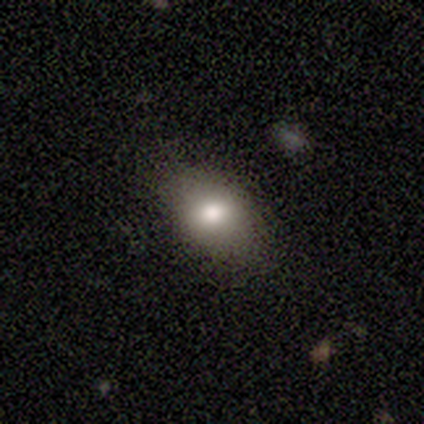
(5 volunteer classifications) Smooth or featured? 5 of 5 (100%) said smooth. How rounded? 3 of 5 (60%) said in between. Merging? 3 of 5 (60%) said none.